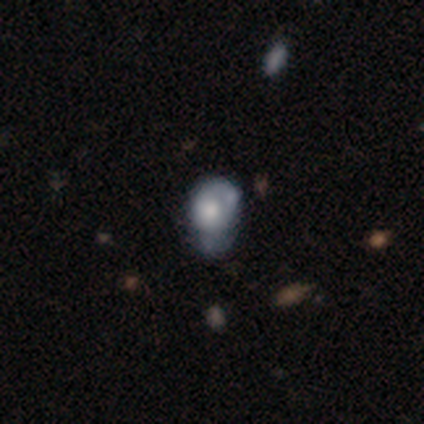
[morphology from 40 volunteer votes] Smooth or featured?
  - featured or disk: 50% *
  - smooth: 48%
  - star or artifact: 2%
Edge-on disk?
  - no: 100% *
  - yes: 0%
Bar?
  - no: 95% *
  - weak: 5%
  - strong: 0%
Spiral arms?
  - no: 80% *
  - yes: 20%
Bulge size?
  - large: 40% *
  - moderate: 35%
  - dominant: 10%
  - small: 10%
  - none: 5%
Merging?
  - minor disturbance: 26% *
  - none: 18%
  - major disturbance: 18%
  - merger: 13%